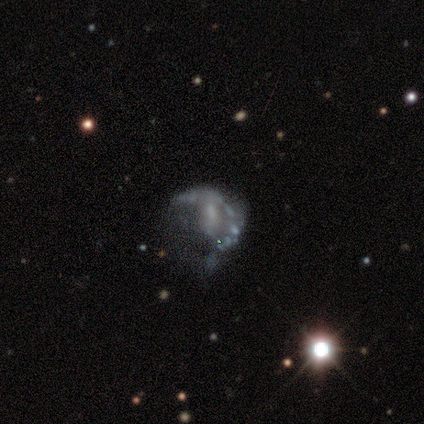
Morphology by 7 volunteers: Overall: featured or disk (100%). Edge-on disk: no (100%). Bar: no (100%). Spiral arms: no (86%). Bulge size: small (43%, tied with none). Merging: major disturbance (71%).